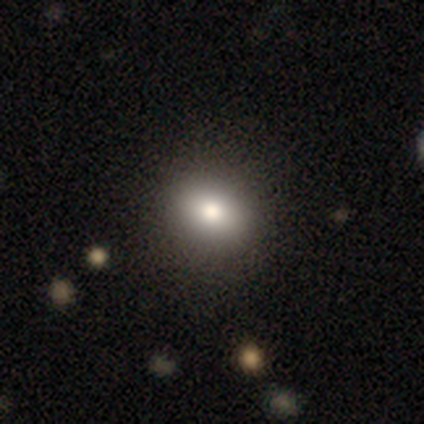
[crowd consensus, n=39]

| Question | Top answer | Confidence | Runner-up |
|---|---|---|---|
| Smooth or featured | smooth | 77% | featured or disk (15%) |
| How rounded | round | 63% | in between (37%) |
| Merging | none | 64% | minor disturbance (6%) |